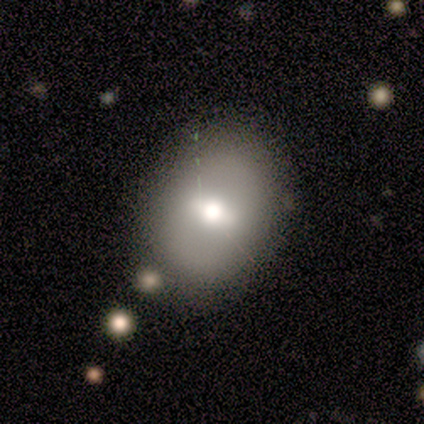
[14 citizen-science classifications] A smooth galaxy with no disk features (79%) that is in between round and cigar-shaped (73%). Merging: none (79%).